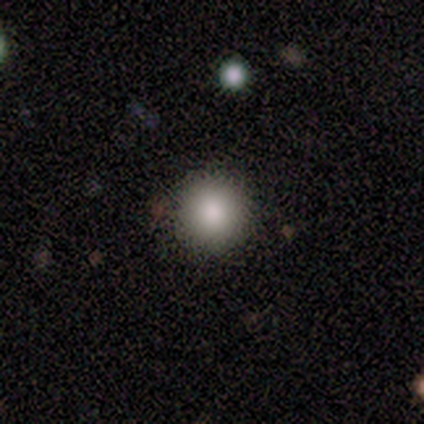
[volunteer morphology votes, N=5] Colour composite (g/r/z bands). It shows a smooth galaxy with no disk features (60%) that is round (100%). Merging: none (100%).